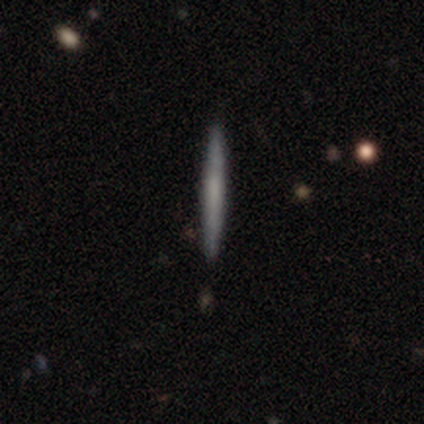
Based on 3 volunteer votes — Smooth or featured?
  - smooth: 33% * (tied)
  - featured or disk: 33% * (tied)
  - star or artifact: 33% * (tied)
How rounded?
  - cigar-shaped: 100% *
  - round: 0%
  - in between: 0%
Merging?
  - none: 100% *
  - minor disturbance: 0%
  - major disturbance: 0%
  - merger: 0%